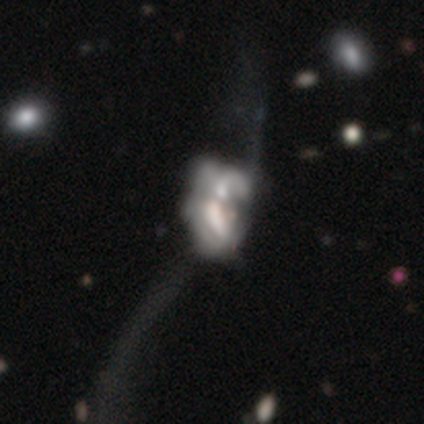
smooth_or_featured: featured or disk (p=0.71) [alt: smooth p=0.23]
disk_edge_on: no (p=0.95) [alt: yes p=0.05]
bar: no (p=0.75) [alt: strong p=0.15]
has_spiral_arms: no (p=0.75) [alt: yes p=0.25]
bulge_size: none (p=0.44) [alt: large p=0.19]
merging: merger (p=0.42) [alt: major disturbance p=0.07]